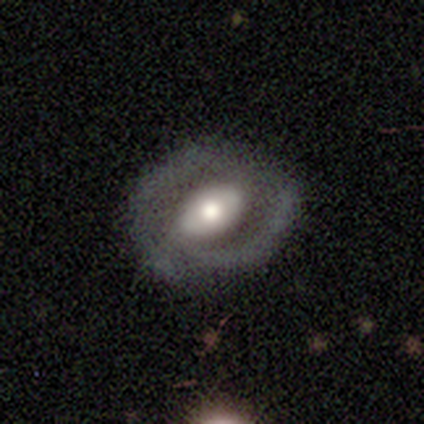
featured or disk 86%, smooth 8%, star or artifact 5%. Down the decision tree: edge-on disk — no (91%); bar — weak (41%); spiral arms — yes (55%); spiral arm count — 2 (69%); spiral winding — medium (44%); bulge size — moderate (48%); merging — none (66%).